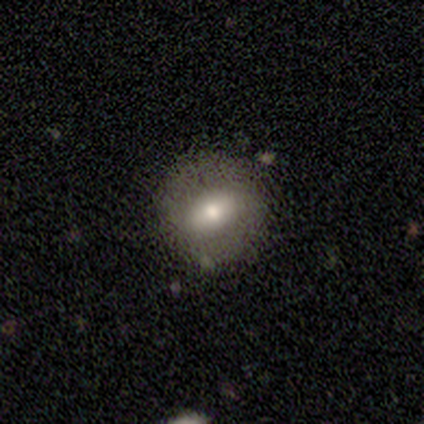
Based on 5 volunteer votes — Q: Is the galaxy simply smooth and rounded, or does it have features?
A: smooth — 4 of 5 (80%).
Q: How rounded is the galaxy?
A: round — 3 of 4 (75%).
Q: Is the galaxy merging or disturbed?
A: none — 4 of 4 (100%).